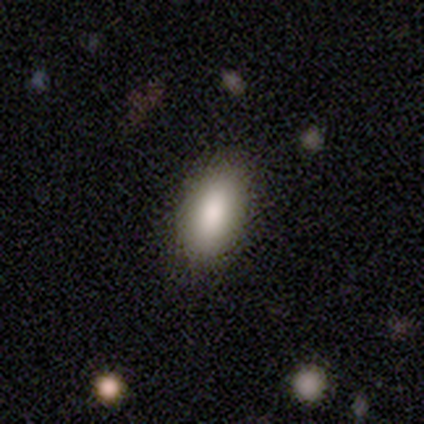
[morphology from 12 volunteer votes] Smooth or featured?
  - smooth: 75% *
  - featured or disk: 17%
  - star or artifact: 8%
How rounded?
  - in between: 89% *
  - cigar-shaped: 11%
  - round: 0%
Merging?
  - none: 91% *
  - minor disturbance: 9%
  - major disturbance: 0%
  - merger: 0%